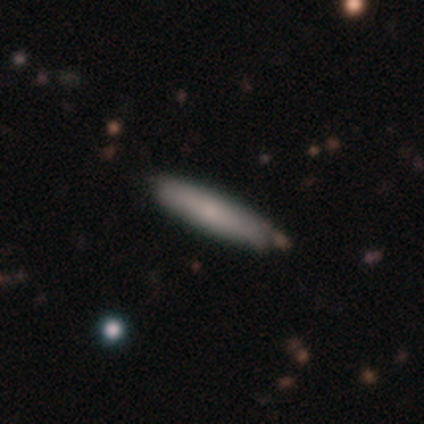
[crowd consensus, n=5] This appears to be a smooth galaxy with no disk features (80%) that is cigar-shaped (75%). Merging: none (60%).